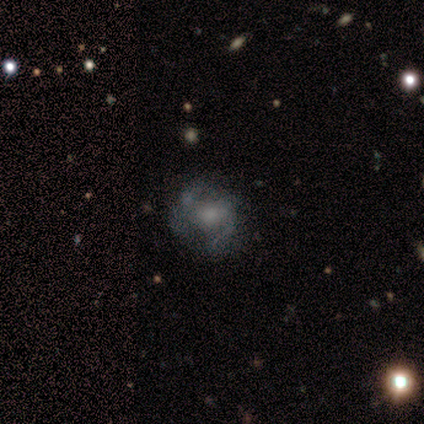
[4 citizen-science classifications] A featured or disk galaxy (50%) with no bar (100%), no spiral arms (100%) and a large central bulge (50%, tied with small). Merging: none (100%).